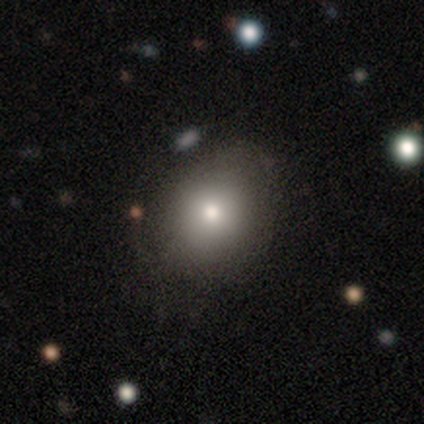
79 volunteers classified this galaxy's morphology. type=smooth (84%); roundness=round (62%); merging=none (36%).